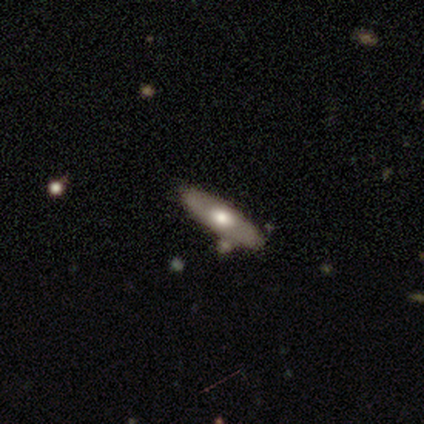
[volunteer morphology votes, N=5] This is likely a featured or disk galaxy (60%). It is likely not viewed edge-on (67%). Bar: clearly no (100%). Spiral arm pattern: clearly no (100%). Central bulge: clearly moderate (100%). Merging: likely none (75%).